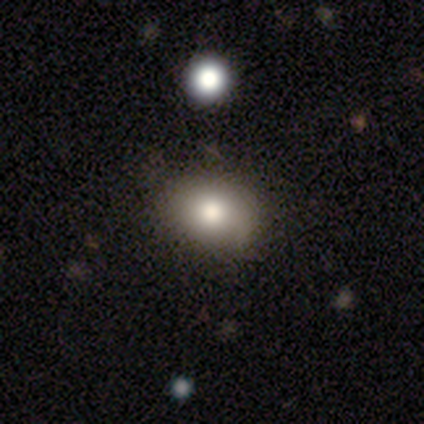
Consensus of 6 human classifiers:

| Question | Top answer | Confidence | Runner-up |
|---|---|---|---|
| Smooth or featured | smooth | 50% | star or artifact (33%) |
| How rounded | in between | 67% | round (33%) |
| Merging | none | 75% | merger (25%) |